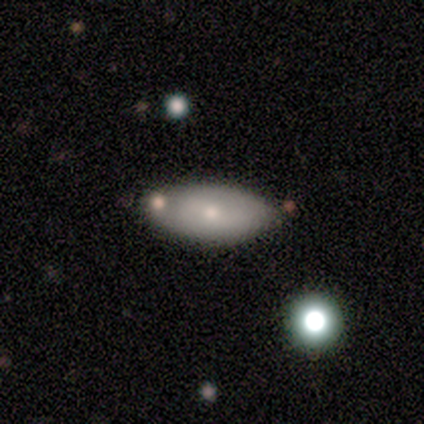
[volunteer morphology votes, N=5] featured or disk 60%, smooth 40%, star or artifact 0%. Down the decision tree: edge-on disk — no (100%); bar — weak (67%); spiral arms — no (67%); bulge size — small (100%); merging — none (60%).